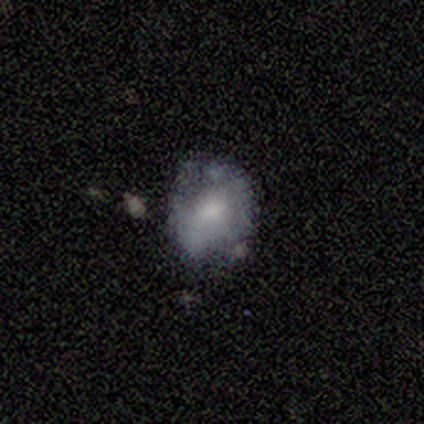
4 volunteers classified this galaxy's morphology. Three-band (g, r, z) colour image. It shows a smooth galaxy with no disk features (75%) that is round (100%). Merging: minor disturbance (75%).